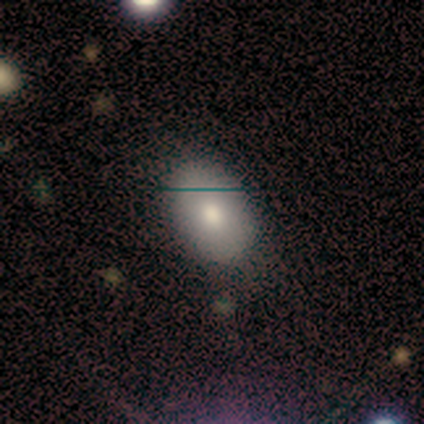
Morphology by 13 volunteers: A smooth galaxy with no disk features (77%) that is in between round and cigar-shaped (70%).

Vote fractions:
- Smooth or featured? smooth: 77% / featured or disk: 23% / star or artifact: 0%
- How rounded? in between: 70% / round: 30% / cigar-shaped: 0%
- Merging? none: 92% / minor disturbance: 8% / major disturbance: 0% / merger: 0%